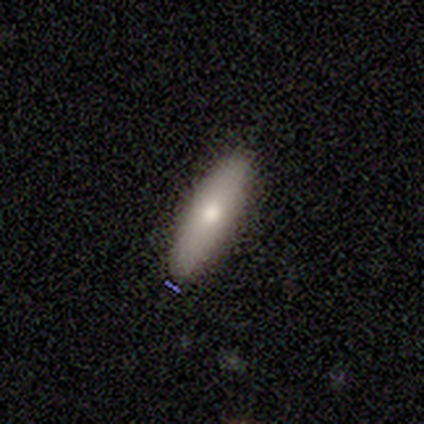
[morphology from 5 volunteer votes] Smooth or featured?
  - smooth: 80% *
  - star or artifact: 20%
  - featured or disk: 0%
How rounded?
  - in between: 50% * (tied)
  - cigar-shaped: 50% * (tied)
  - round: 0%
Merging?
  - none: 75% *
  - minor disturbance: 25%
  - major disturbance: 0%
  - merger: 0%